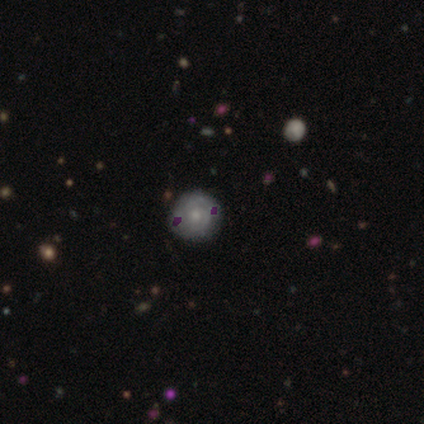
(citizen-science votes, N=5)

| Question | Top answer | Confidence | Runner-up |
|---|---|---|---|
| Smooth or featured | smooth | 40% | tied: featured or disk (40%) |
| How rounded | round | 100% | — |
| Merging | none | 100% | — |